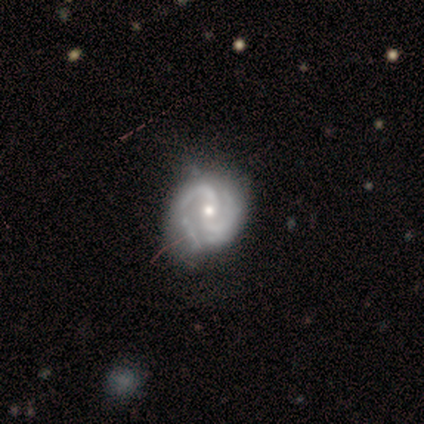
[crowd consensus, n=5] Morphology: type=featured or disk (100%); edge-on=no (100%); bar=no (60%); spiral arms=yes (100%); winding=tight (60%); arm count=2 (80%); bulge=moderate (80%); merging=minor disturbance (80%).